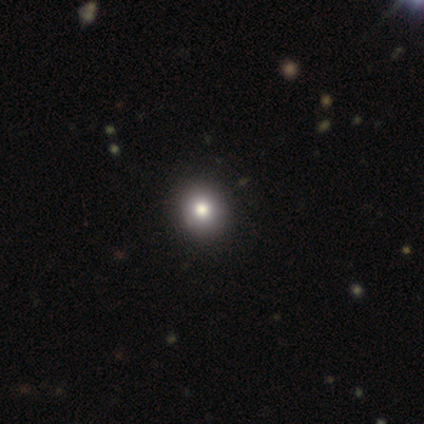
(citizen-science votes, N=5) A smooth galaxy with no disk features (100%) that is round (80%). Merging: none (100%).